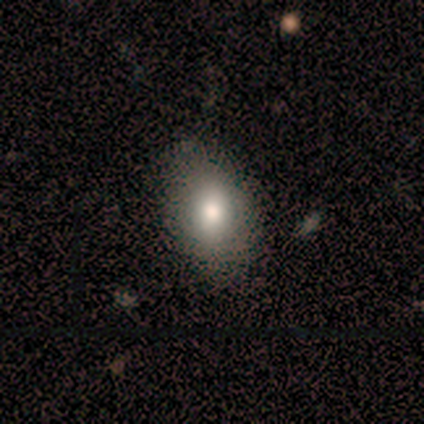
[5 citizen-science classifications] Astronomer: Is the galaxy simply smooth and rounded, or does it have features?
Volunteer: smooth — 80%.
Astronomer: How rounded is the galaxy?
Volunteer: in between — 75%.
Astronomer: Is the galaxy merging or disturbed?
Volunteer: none — 100%.